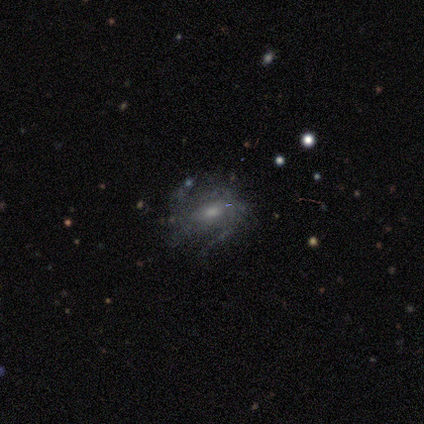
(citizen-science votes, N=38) Smooth or featured? 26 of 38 (68%) said featured or disk. Edge-on disk? 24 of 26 (92%) said no. Bar? 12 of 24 (50%) said weak. Spiral arms? 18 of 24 (75%) said yes. Spiral winding? 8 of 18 (44%, tied with medium) said tight. Spiral arm count? 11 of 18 (61%) said can't tell. Bulge size? 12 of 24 (50%) said moderate. Merging? 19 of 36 (53%) said none.